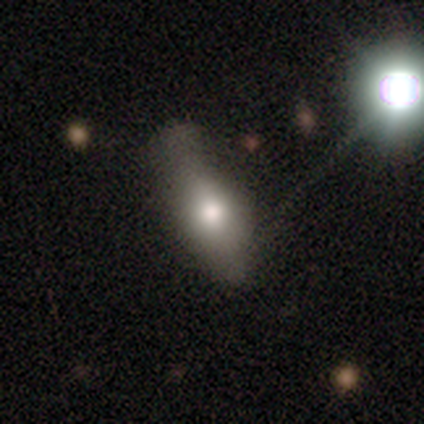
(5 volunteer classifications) smooth-or-featured: featured or disk: 60% | smooth: 40% | star or artifact: 0%
  disk-edge-on: yes: 100% | no: 0%
    edge-on-bulge: rounded: 100% | boxy: 0% | none: 0%
  merging: none: 40% (tied) | minor disturbance: 40% (tied) | major disturbance: 20% | merger: 0%